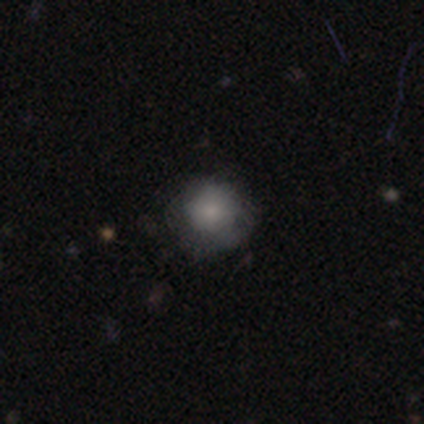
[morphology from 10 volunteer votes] Smooth or featured: smooth — 80% (featured or disk — 10%)
How rounded: round — 88% (in between — 12%)
Merging: none — 89% (minor disturbance — 11%)